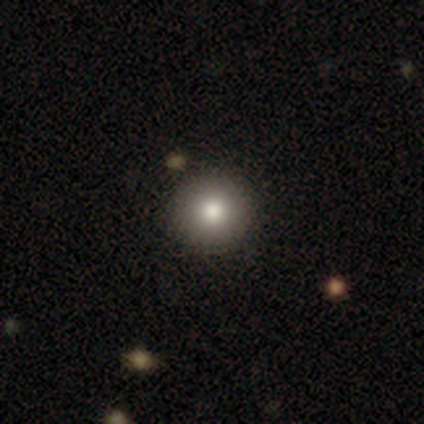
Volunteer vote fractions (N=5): Smooth or featured: smooth — 60% (featured or disk — 20%)
How rounded: round — 100%
Merging: none — 100%